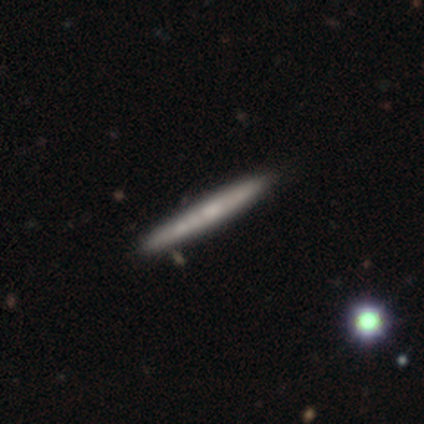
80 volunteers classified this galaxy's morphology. smooth 50%, featured or disk 46%, star or artifact 4%. Down the decision tree: how rounded — cigar-shaped (98%); merging — none (45%).